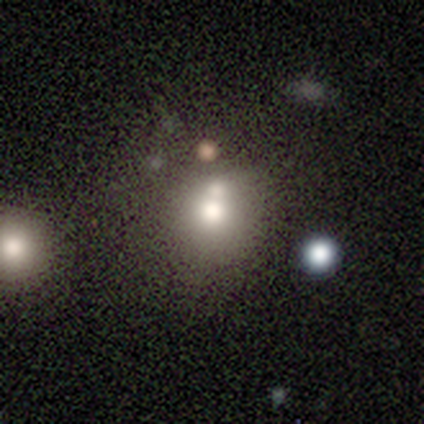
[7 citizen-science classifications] Smooth or featured: smooth — 100%
How rounded: round — 86% (in between — 14%)
Merging: merger — 57% (none — 29%)